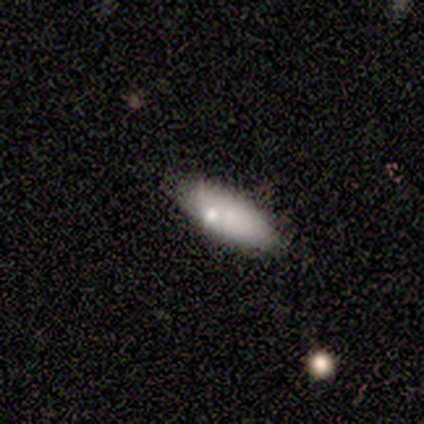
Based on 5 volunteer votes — smooth-or-featured: smooth: 100% | featured or disk: 0% | star or artifact: 0%
  how-rounded: in between: 80% | cigar-shaped: 20% | round: 0%
  merging: none: 100% | minor disturbance: 0% | major disturbance: 0% | merger: 0%